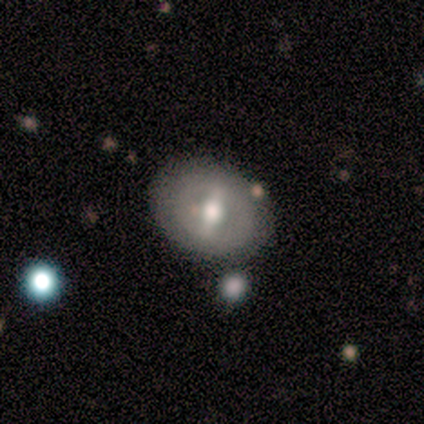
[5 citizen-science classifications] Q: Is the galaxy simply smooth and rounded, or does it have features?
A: featured or disk — 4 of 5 (80%).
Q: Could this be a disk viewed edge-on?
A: no — 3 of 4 (75%).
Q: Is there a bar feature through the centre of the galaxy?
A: weak — 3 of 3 (100%).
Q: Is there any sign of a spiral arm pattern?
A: no — 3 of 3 (100%).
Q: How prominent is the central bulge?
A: moderate — 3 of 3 (100%).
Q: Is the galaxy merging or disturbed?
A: none — 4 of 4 (100%).